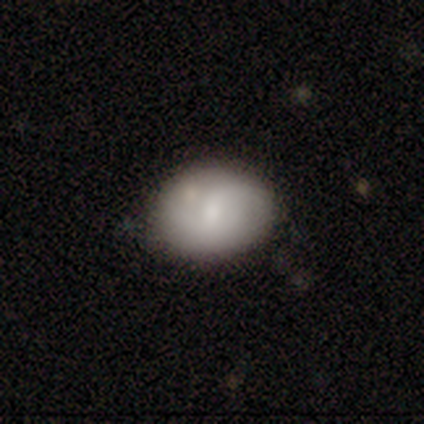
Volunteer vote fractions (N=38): smooth-or-featured: smooth: 61% | featured or disk: 34% | star or artifact: 5%
  how-rounded: in between: 74% | round: 22% | cigar-shaped: 4%
  merging: none: 78% | minor disturbance: 8% | merger: 8% | major disturbance: 6%